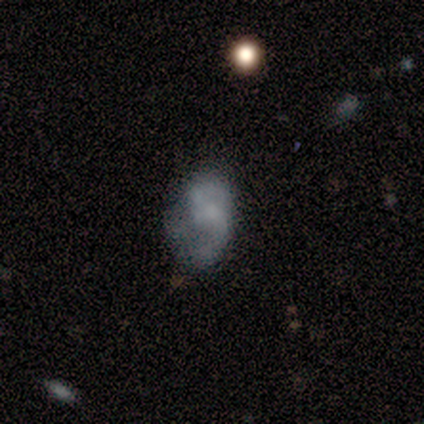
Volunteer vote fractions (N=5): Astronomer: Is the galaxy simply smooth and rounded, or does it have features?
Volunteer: smooth — 60% (runner-up: featured or disk, 40%).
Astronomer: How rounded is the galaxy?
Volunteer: in between — 67%.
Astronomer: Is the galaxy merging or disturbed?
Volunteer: none — 40%, tied with minor disturbance at 40%.